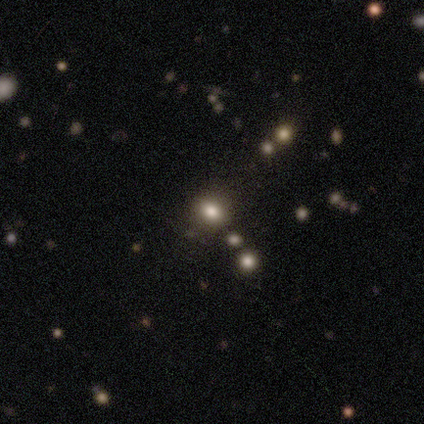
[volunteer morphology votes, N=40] Volunteers were most divided on "how rounded": round: 68%, in between: 32%, cigar-shaped: 0%. More confident: smooth or featured — smooth (70%); merging — none (56%).